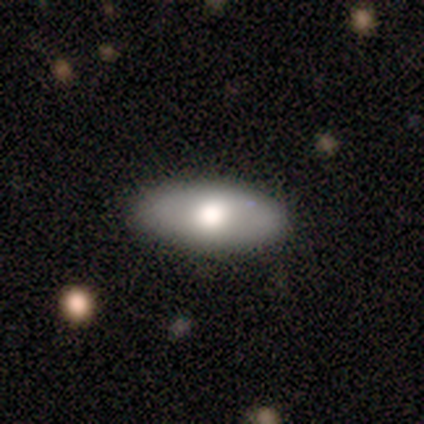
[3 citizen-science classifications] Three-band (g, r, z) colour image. It shows a smooth galaxy with no disk features (100%) that is in between round and cigar-shaped (67%). Merging: none (67%).